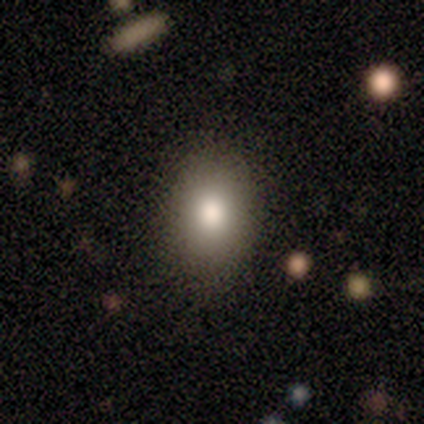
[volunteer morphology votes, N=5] Smooth or featured?
  - star or artifact: 60% *
  - smooth: 40%
  - featured or disk: 0%